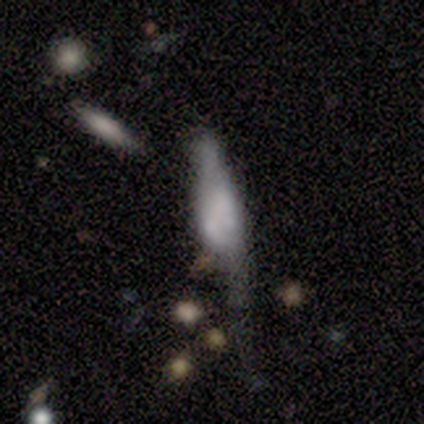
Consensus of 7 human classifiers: Morphology: type=smooth (57%); roundness=in between (50%); merging=minor disturbance (57%).